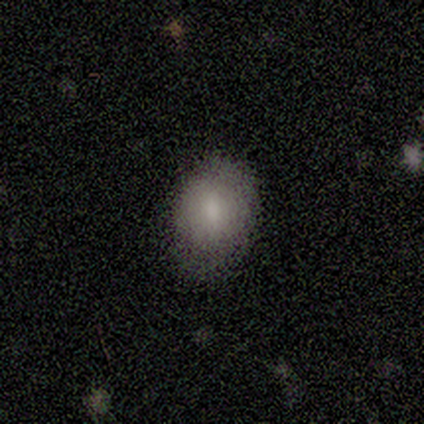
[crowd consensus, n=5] smooth 100%, featured or disk 0%, star or artifact 0%. Down the decision tree: how rounded — in between (80%); merging — none (80%).